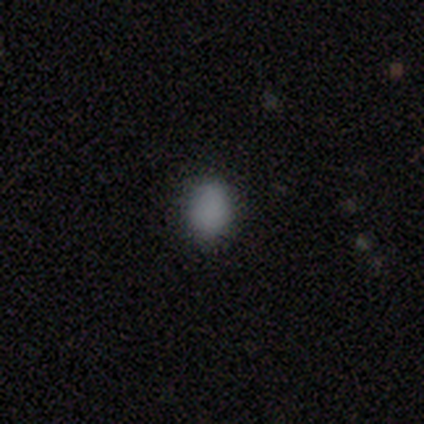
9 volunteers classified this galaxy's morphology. Smooth or featured?
  - smooth: 67% *
  - star or artifact: 33%
  - featured or disk: 0%
How rounded?
  - round: 50% * (tied)
  - in between: 50% * (tied)
  - cigar-shaped: 0%
Merging?
  - none: 83% *
  - minor disturbance: 17%
  - major disturbance: 0%
  - merger: 0%